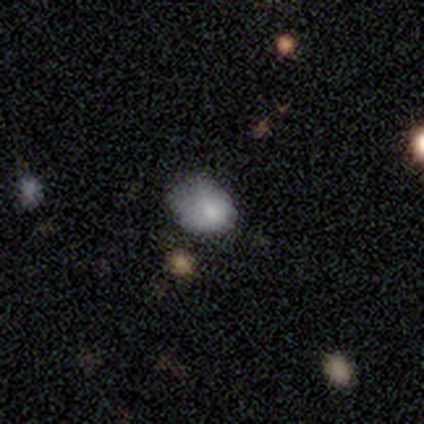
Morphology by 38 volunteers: Smooth or featured: smooth — 76% (star or artifact — 18%)
How rounded: in between — 55% (round — 45%)
Merging: minor disturbance — 55% (none — 29%)